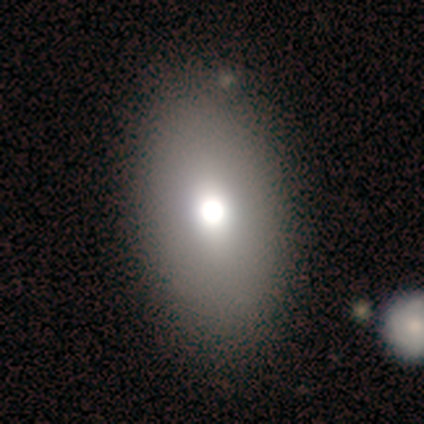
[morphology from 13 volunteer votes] Smooth or featured? 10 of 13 (77%) said smooth. How rounded? 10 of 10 (100%) said in between. Merging? 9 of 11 (82%) said none.